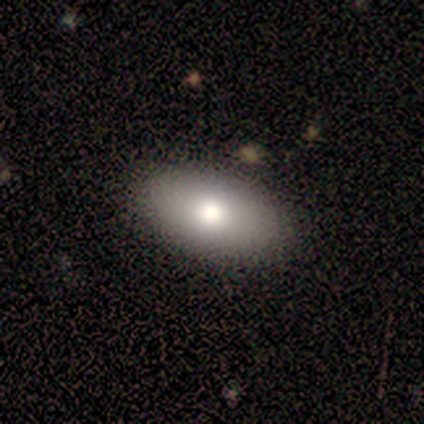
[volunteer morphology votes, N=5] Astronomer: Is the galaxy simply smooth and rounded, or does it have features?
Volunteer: smooth — 100%.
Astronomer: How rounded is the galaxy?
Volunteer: in between — 100%.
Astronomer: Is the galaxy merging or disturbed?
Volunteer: none — 100%.